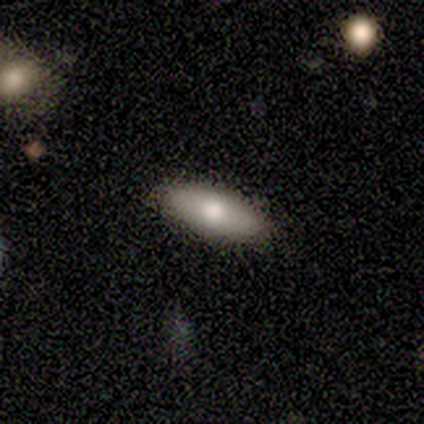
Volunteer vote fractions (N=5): Morphology: type=smooth (100%); roundness=in between (100%); merging=none (100%).